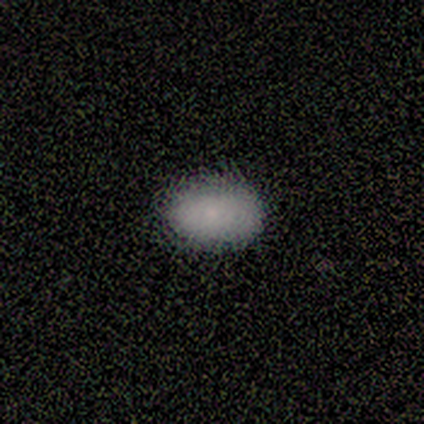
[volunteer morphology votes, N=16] This appears to be a smooth galaxy with no disk features (88%) that is in between round and cigar-shaped (100%). Merging: none (93%).